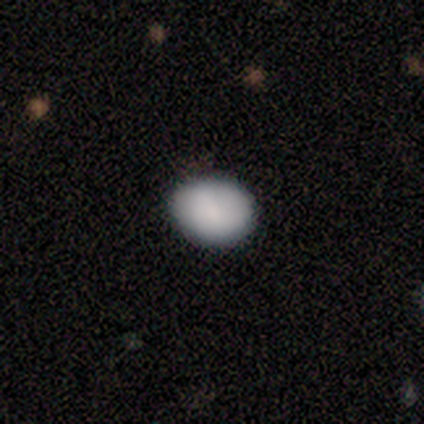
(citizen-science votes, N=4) Smooth or featured? smooth (100%)
How rounded? round (100%)
Merging? none (100%)